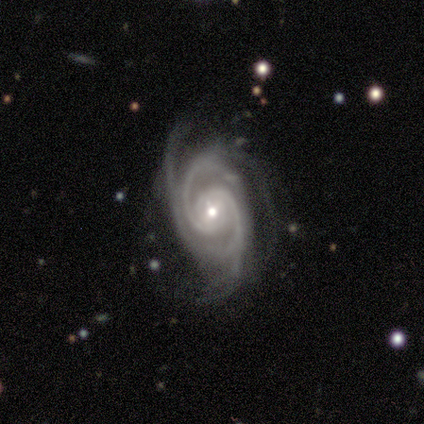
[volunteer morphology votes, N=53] Smooth or featured: featured or disk — 96% (star or artifact — 4%)
Edge-on disk: no — 100%
Bar: no — 61% (weak — 29%)
Spiral arms: yes — 98% (no — 2%)
Spiral winding: tight — 62% (medium — 32%)
Spiral arm count: 2 — 48% (3 — 24%)
Bulge size: moderate — 55% (small — 43%)
Merging: none — 49% (minor disturbance — 31%)